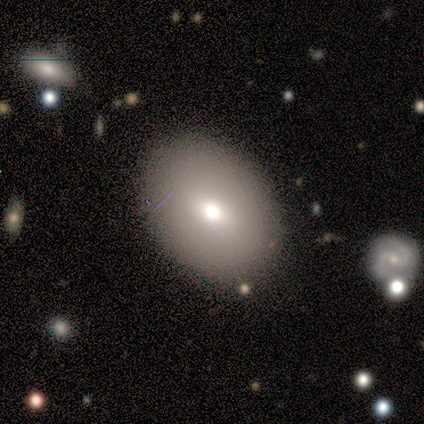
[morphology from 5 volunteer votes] This appears to be a smooth galaxy with no disk features (80%) that is in between round and cigar-shaped (75%). Merging: none (80%).